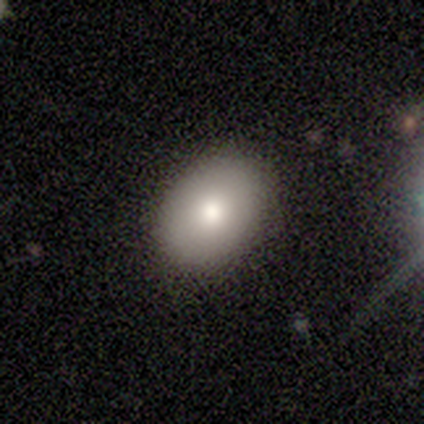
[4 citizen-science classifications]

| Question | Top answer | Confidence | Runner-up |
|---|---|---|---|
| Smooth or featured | smooth | 100% | — |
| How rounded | in between | 75% | round (25%) |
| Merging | none | 100% | — |